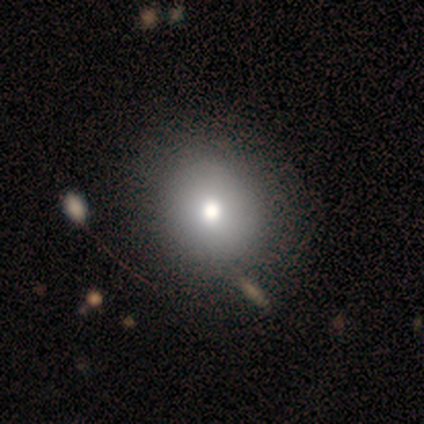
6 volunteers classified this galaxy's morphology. This appears to be a smooth galaxy with no disk features (83%) that is round (100%). Merging: none (80%).